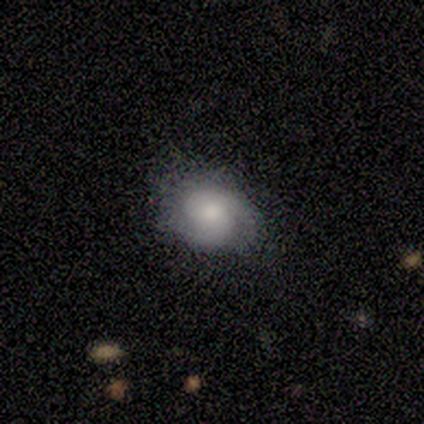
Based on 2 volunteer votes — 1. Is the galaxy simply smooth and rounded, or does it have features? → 50% smooth (tied), 50% featured or disk (tied), 0% star or artifact.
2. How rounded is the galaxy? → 100% round, 0% in between, 0% cigar-shaped.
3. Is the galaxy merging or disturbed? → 50% minor disturbance (tied), 50% major disturbance (tied), 0% none, 0% merger.